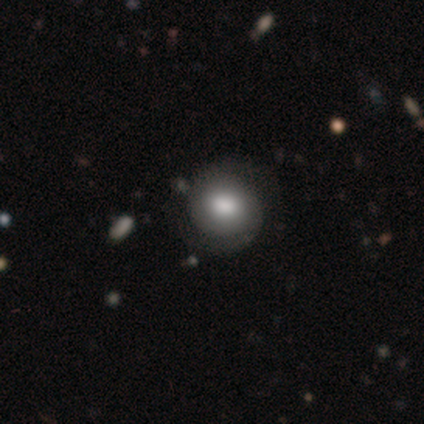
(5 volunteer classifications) Overall: smooth (100%). How rounded: round (100%). Merging: none (60%; major disturbance 40%).